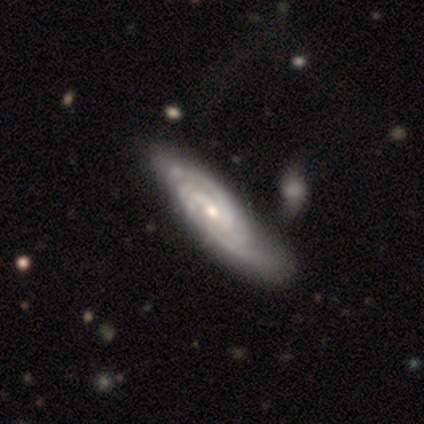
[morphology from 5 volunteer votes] Smooth or featured? featured or disk (100%)
Edge-on disk? no (80%)
Bar? weak (75%)
Spiral arms? yes (100%)
Spiral winding? tight (75%)
Spiral arm count? can't tell (75%)
Bulge size? moderate (50%, tied with small)
Merging? none (80%)